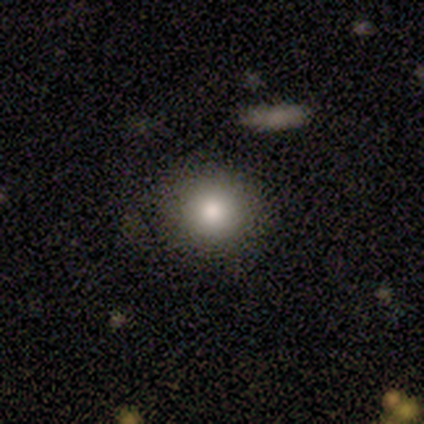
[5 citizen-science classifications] Smooth or featured? smooth (60%)
How rounded? round (67%)
Merging? none (80%)